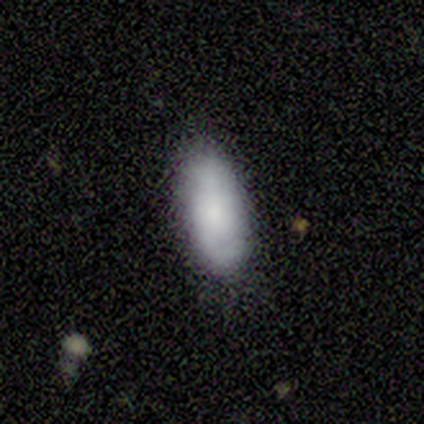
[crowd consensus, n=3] Q: Smooth or featured?
A: smooth (67%); runner-up: featured or disk (33%)
Q: How rounded?
A: in between (100%)
Q: Merging?
A: none (100%)